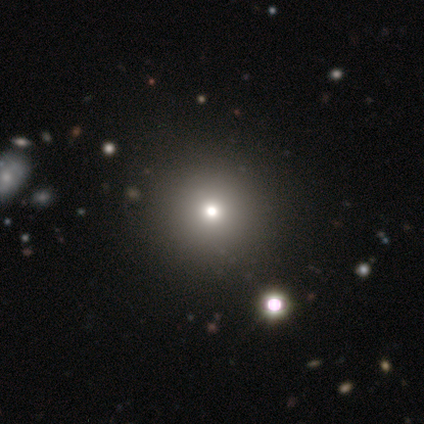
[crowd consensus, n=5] Smooth or featured: smooth — 40% (tied with star or artifact — 40%)
How rounded: round — 100%
Merging: none — 100%